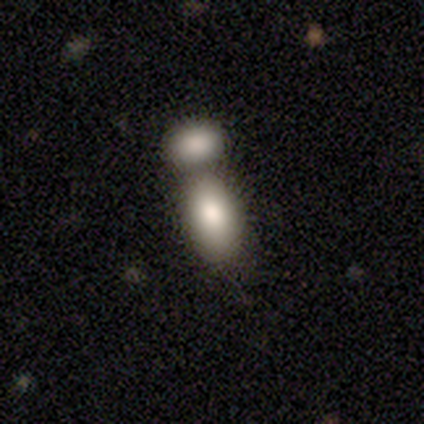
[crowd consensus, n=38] Smooth or featured?
  - smooth: 84% *
  - featured or disk: 11%
  - star or artifact: 5%
How rounded?
  - in between: 88% *
  - round: 9%
  - cigar-shaped: 3%
Merging?
  - merger: 81% *
  - none: 0%
  - minor disturbance: 0%
  - major disturbance: 0%